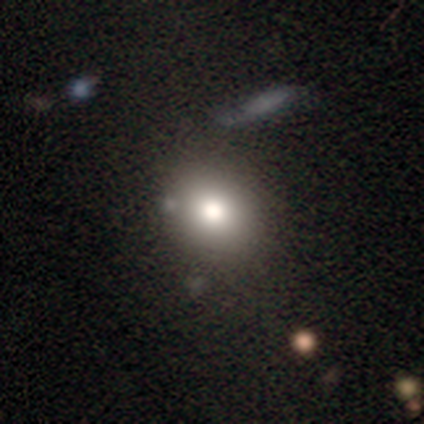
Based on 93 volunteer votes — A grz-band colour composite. It shows a smooth galaxy with no disk features (75%) that is round (70%). Merging: none (85%).